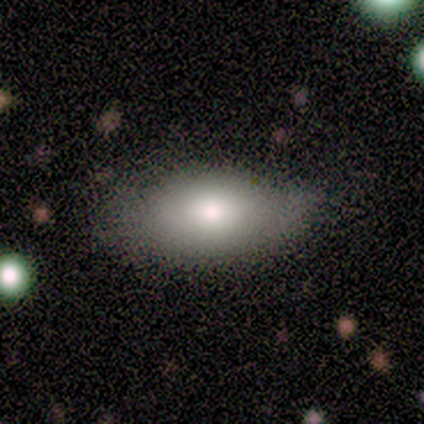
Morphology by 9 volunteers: This appears to be a smooth galaxy with no disk features (78%) that is in between round and cigar-shaped (86%). Merging: none (67%).